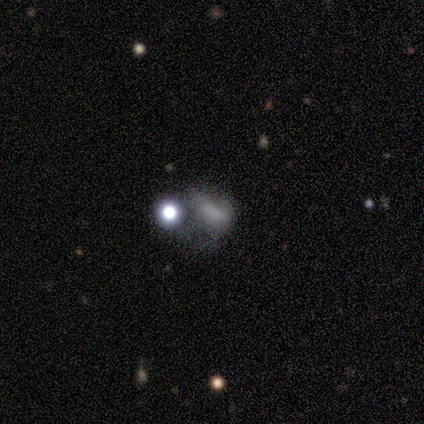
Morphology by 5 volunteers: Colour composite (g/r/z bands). It shows a smooth galaxy with no disk features (60%) that is in between round and cigar-shaped (100%). Merging: major disturbance (67%).